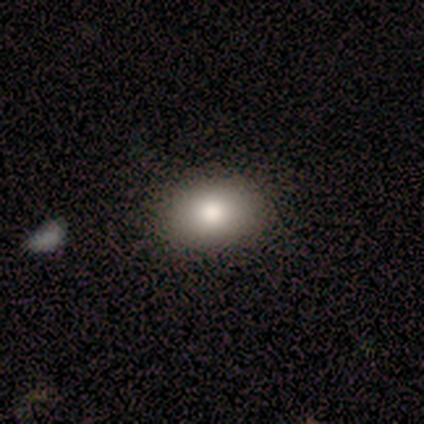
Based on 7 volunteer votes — This appears to be a smooth galaxy with no disk features (100%) that is in between round and cigar-shaped (86%). Merging: none (86%).